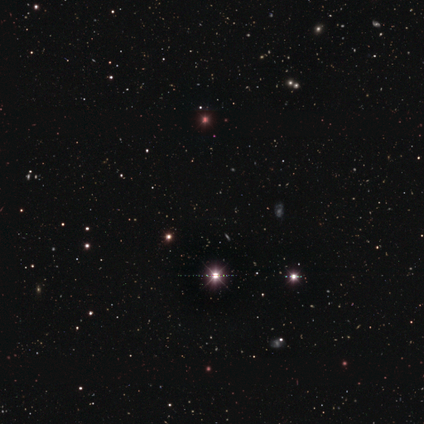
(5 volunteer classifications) A star or artifact, not a galaxy (100%).

Vote fractions:
- Smooth or featured? star or artifact: 100% / smooth: 0% / featured or disk: 0%